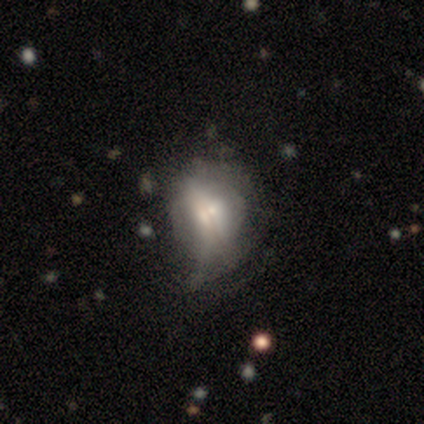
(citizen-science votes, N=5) Morphology: type=featured or disk (80%); edge-on=yes (75%); edge-on bulge=rounded (67%); merging=major disturbance (40%).